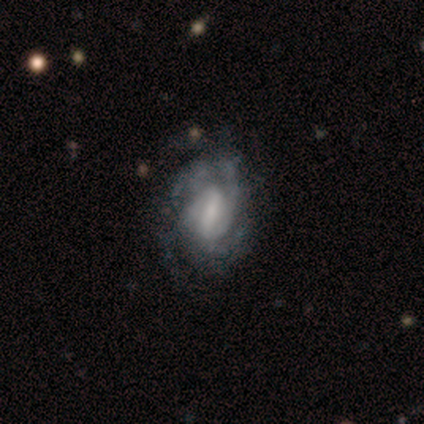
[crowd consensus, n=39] This appears to be a featured or disk galaxy (87%) with a strong bar (53%), medium (50%) spiral arms (94%) and a small central bulge (35%). Merging: none (37%).